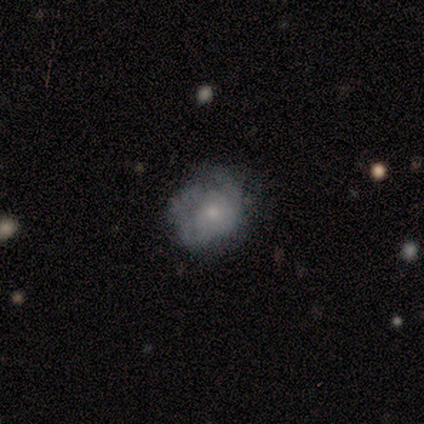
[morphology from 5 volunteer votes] Smooth or featured?
  - smooth: 80% *
  - featured or disk: 20%
  - star or artifact: 0%
How rounded?
  - round: 75% *
  - in between: 25%
  - cigar-shaped: 0%
Merging?
  - none: 80% *
  - major disturbance: 20%
  - minor disturbance: 0%
  - merger: 0%